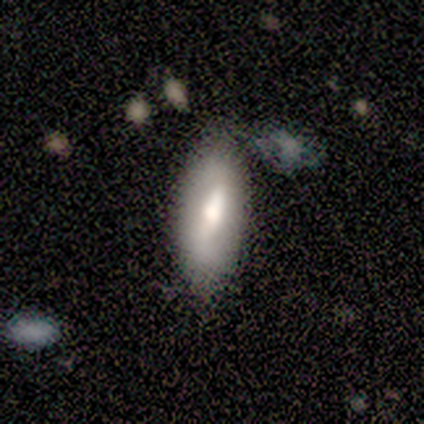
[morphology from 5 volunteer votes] Overall: smooth (60%; featured or disk 20%). How rounded: in between (67%; cigar-shaped 33%). Merging: none (75%).